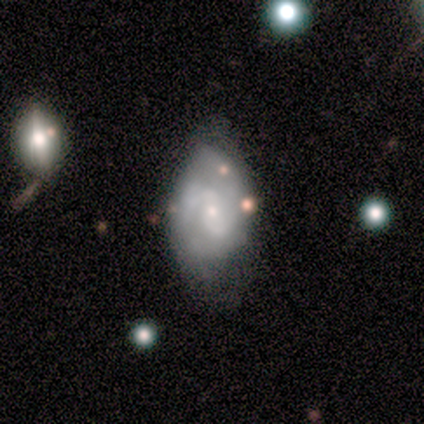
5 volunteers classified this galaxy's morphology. Smooth or featured? featured or disk (60%)
Edge-on disk? no (100%)
Bar? weak (67%)
Spiral arms? yes (100%)
Spiral winding? tight (67%)
Spiral arm count? 2 (67%)
Bulge size? small (100%)
Merging? none (50%, tied with minor disturbance)